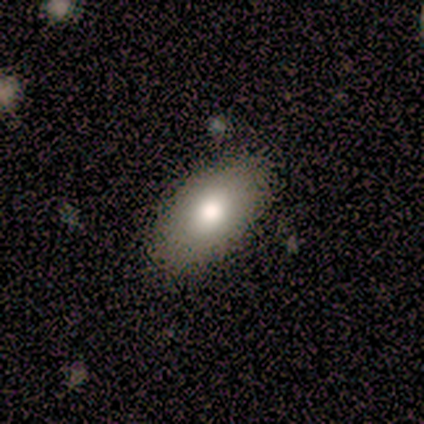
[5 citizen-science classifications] Morphology: type=smooth (60%); roundness=in between (100%); merging=none (100%).